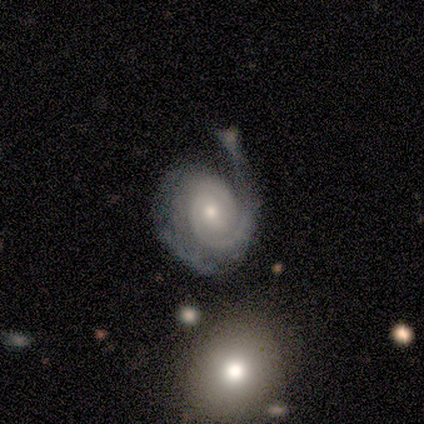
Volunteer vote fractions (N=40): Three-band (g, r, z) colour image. It shows a featured or disk galaxy (98%) with no bar (77%), 2 (68%) tight (71%) spiral arms (97%) and a moderate central bulge (54%). Merging: none (23%).